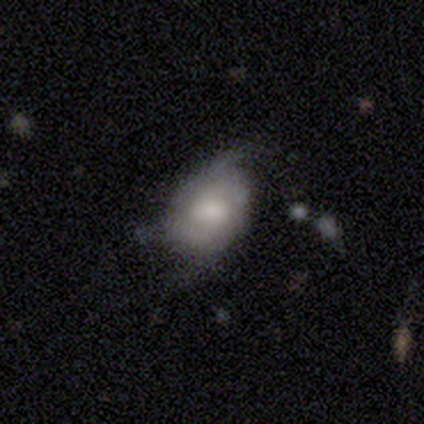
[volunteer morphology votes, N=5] A smooth galaxy with no disk features (80%) that is round (50%, tied with in between).

Vote fractions:
- Smooth or featured? smooth: 80% / featured or disk: 20% / star or artifact: 0%
- How rounded? round: 50% (tied) / in between: 50% (tied) / cigar-shaped: 0%
- Merging? none: 60% / minor disturbance: 40% / major disturbance: 0% / merger: 0%